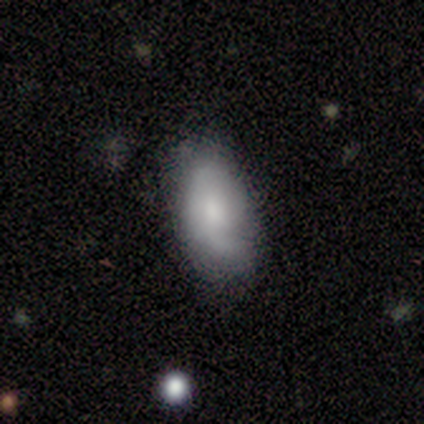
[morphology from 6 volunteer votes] type=smooth (50%, tied with featured or disk); roundness=in between (100%); merging=none (83%).